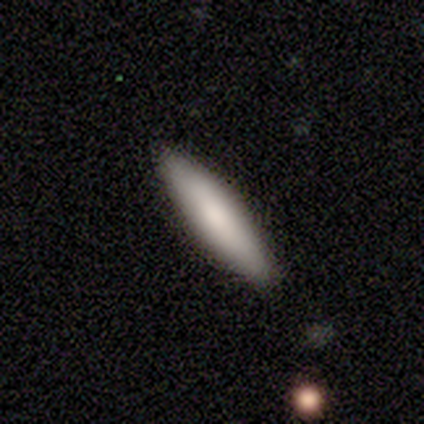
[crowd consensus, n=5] This is clearly a smooth galaxy (80%). How rounded: clearly cigar-shaped (100%). Merging: clearly none (100%).